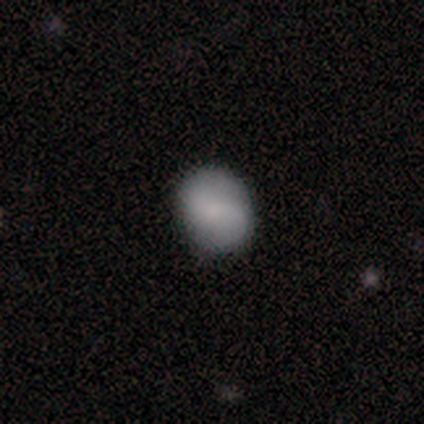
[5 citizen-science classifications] smooth_or_featured: smooth (p=0.40) [tied with: star or artifact p=0.40]
how_rounded: round (p=1.00)
merging: none (p=0.67) [alt: minor disturbance p=0.33]